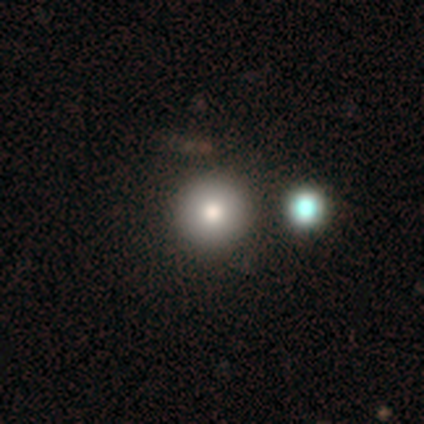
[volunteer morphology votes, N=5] smooth-or-featured: smooth: 100% | featured or disk: 0% | star or artifact: 0%
  how-rounded: round: 100% | in between: 0% | cigar-shaped: 0%
  merging: none: 100% | minor disturbance: 0% | major disturbance: 0% | merger: 0%